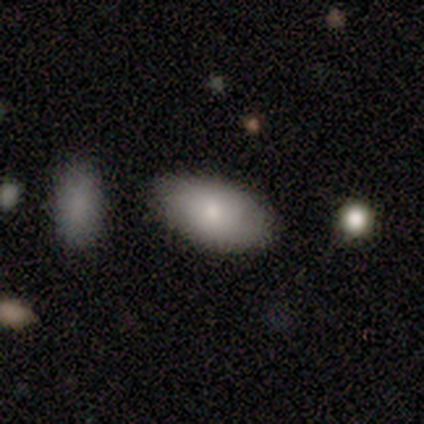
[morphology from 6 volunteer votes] Overall: smooth (83%). How rounded: in between (100%). Merging: none (67%; minor disturbance 33%).